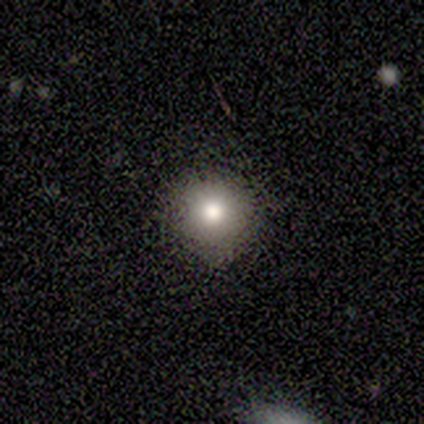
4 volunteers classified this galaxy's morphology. smooth-or-featured: smooth: 75% | star or artifact: 25% | featured or disk: 0%
  how-rounded: round: 100% | in between: 0% | cigar-shaped: 0%
  merging: none: 100% | minor disturbance: 0% | major disturbance: 0% | merger: 0%